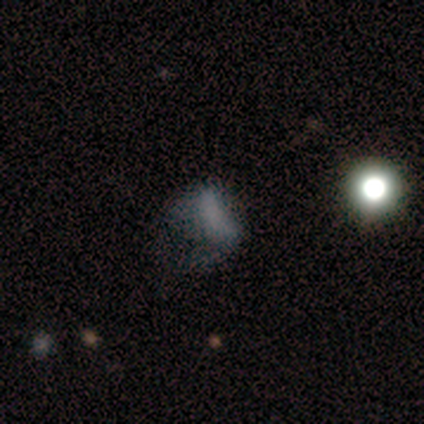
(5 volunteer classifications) Q: Smooth or featured?
A: featured or disk (40%); tied with: star or artifact (40%)
Q: Edge-on disk?
A: no (100%)
Q: Bar?
A: no (100%)
Q: Spiral arms?
A: yes (50%); tied with: no (50%)
Q: Spiral winding?
A: loose (100%)
Q: Spiral arm count?
A: 1 (100%)
Q: Bulge size?
A: none (100%)
Q: Merging?
A: none (33%); tied with: minor disturbance (33%); merger (33%)